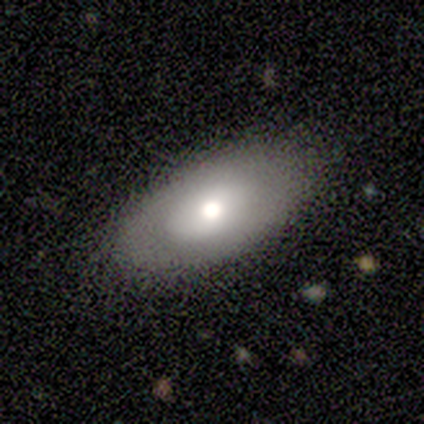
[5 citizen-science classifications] smooth-or-featured: smooth: 60% | featured or disk: 40% | star or artifact: 0%
  how-rounded: in between: 100% | round: 0% | cigar-shaped: 0%
  merging: none: 60% | minor disturbance: 20% | major disturbance: 20% | merger: 0%